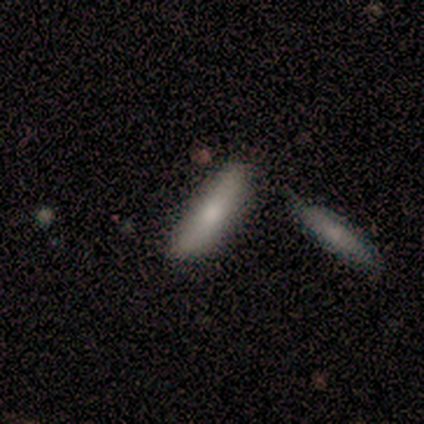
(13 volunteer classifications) Q: Smooth or featured?
A: smooth (85%); runner-up: featured or disk (15%)
Q: How rounded?
A: in between (64%); runner-up: cigar-shaped (36%)
Q: Merging?
A: none (69%); runner-up: minor disturbance (23%)